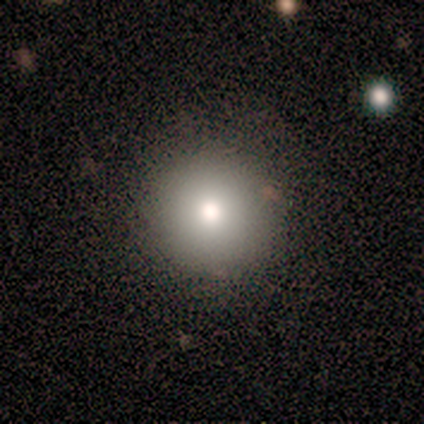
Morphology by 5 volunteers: Overall: smooth (60%; featured or disk 20%). How rounded: round (100%). Merging: none (75%).